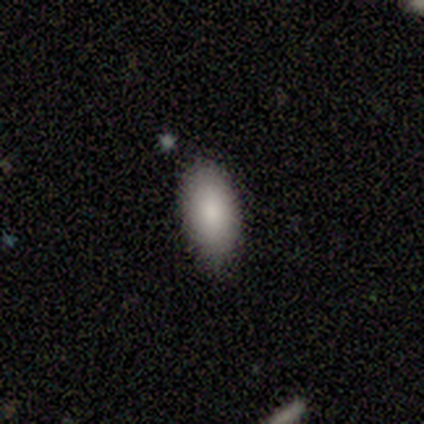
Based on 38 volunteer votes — smooth-or-featured: smooth: 97% | featured or disk: 3% | star or artifact: 0%
  how-rounded: in between: 97% | round: 3% | cigar-shaped: 0%
  merging: none: 95% | major disturbance: 3% | merger: 3% | minor disturbance: 0%